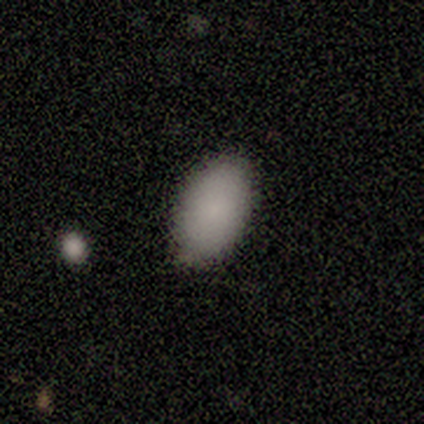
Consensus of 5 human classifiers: A smooth galaxy with no disk features (100%) that is in between round and cigar-shaped (100%).

Vote fractions:
- Smooth or featured? smooth: 100% / featured or disk: 0% / star or artifact: 0%
- How rounded? in between: 100% / round: 0% / cigar-shaped: 0%
- Merging? none: 80% / minor disturbance: 20% / major disturbance: 0% / merger: 0%